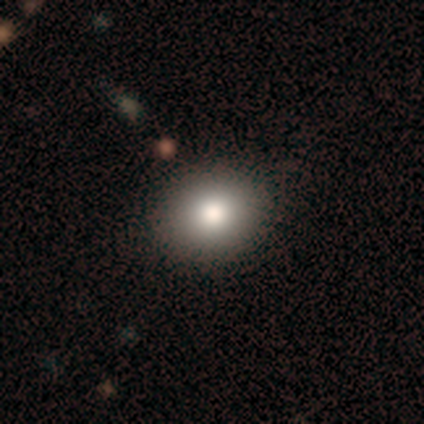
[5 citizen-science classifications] Smooth or featured?
  - smooth: 80% *
  - featured or disk: 20%
  - star or artifact: 0%
How rounded?
  - round: 50% * (tied)
  - in between: 50% * (tied)
  - cigar-shaped: 0%
Merging?
  - none: 100% *
  - minor disturbance: 0%
  - major disturbance: 0%
  - merger: 0%